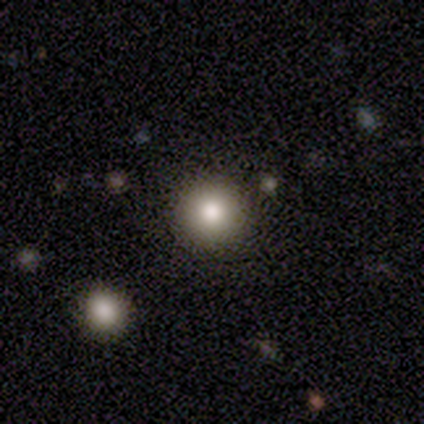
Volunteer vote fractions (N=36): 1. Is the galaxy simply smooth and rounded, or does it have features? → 81% smooth, 17% star or artifact, 3% featured or disk.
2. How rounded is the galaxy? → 93% round, 7% in between, 0% cigar-shaped.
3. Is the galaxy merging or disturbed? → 93% none, 3% minor disturbance, 3% major disturbance, 0% merger.